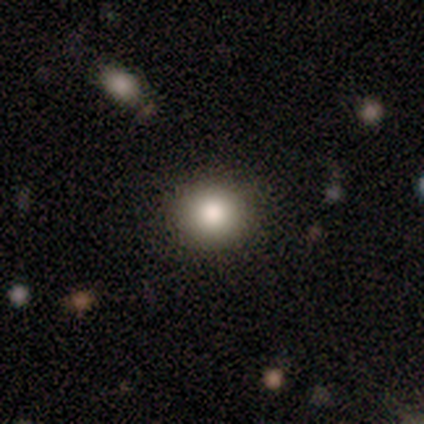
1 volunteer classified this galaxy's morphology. Smooth or featured?
  - smooth: 100% *
  - featured or disk: 0%
  - star or artifact: 0%
How rounded?
  - round: 100% *
  - in between: 0%
  - cigar-shaped: 0%
Merging?
  - major disturbance: 100% *
  - none: 0%
  - minor disturbance: 0%
  - merger: 0%